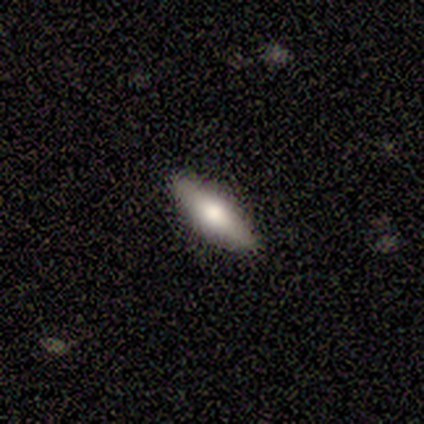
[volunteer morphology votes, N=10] smooth 70%, featured or disk 30%, star or artifact 0%. Down the decision tree: how rounded — in between (86%); merging — none (100%).